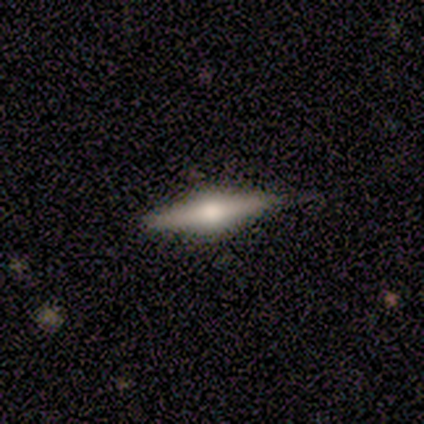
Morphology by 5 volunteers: smooth_or_featured: featured or disk (p=1.00)
disk_edge_on: yes (p=1.00)
edge_on_bulge: rounded (p=1.00)
merging: none (p=1.00)